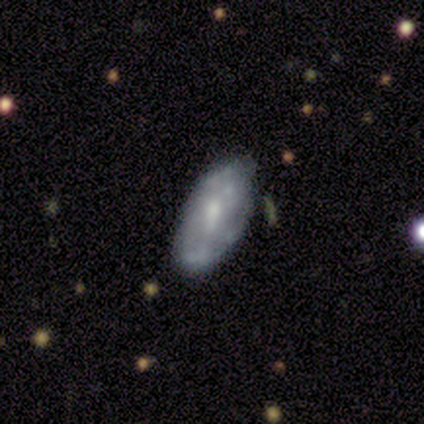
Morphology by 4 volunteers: Volunteers were most divided on "bar" (2-way tie): weak: 50%, no: 50%, strong: 0%. More confident: edge-on disk — no (100%); spiral arms — no (100%); bulge size — moderate (100%); merging — none (67%); smooth or featured — featured or disk (50%).